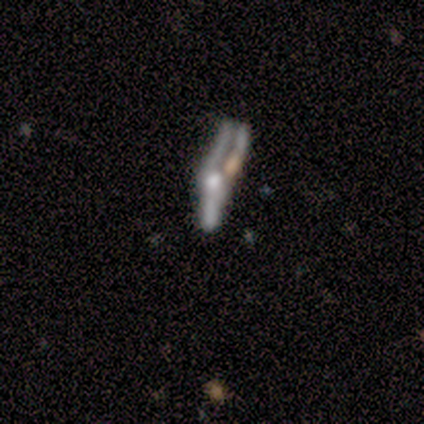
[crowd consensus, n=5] Morphology: type=featured or disk (80%); edge-on=yes (50%, tied with no); edge-on bulge=rounded (100%); merging=major disturbance (50%).